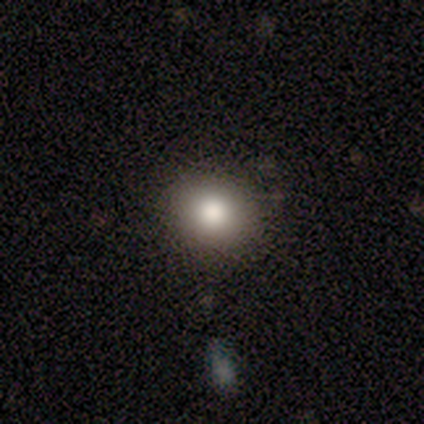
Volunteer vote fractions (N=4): Smooth or featured? 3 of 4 (75%) said smooth. How rounded? 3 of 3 (100%) said round. Merging? 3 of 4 (75%) said none.